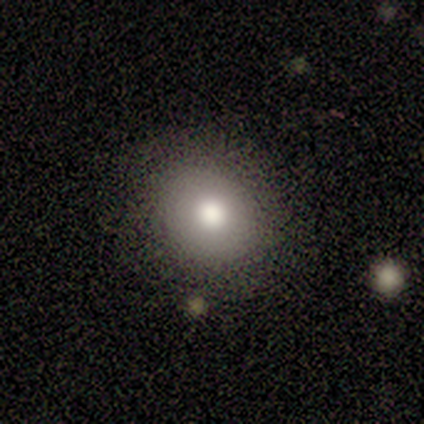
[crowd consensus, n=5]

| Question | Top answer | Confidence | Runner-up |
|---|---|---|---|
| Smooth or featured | smooth | 80% | star or artifact (20%) |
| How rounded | round | 75% | in between (25%) |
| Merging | none | 75% | minor disturbance (25%) |